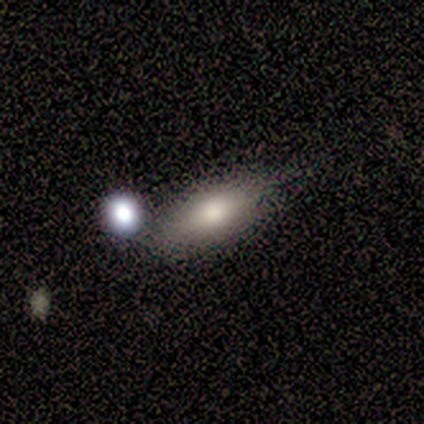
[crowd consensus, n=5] Volunteers were most divided on "merging": none: 60%, minor disturbance: 20%, merger: 20%, major disturbance: 0%. More confident: smooth or featured — smooth (100%); how rounded — in between (100%).